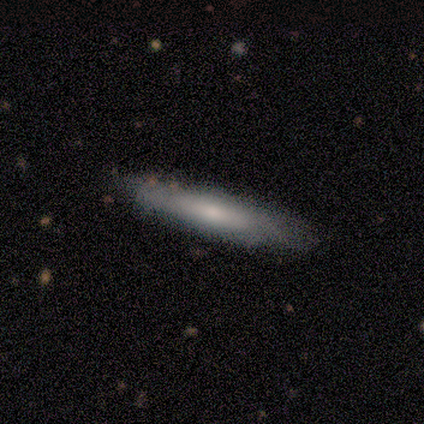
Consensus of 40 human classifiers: Smooth or featured?
  - smooth: 62% *
  - featured or disk: 35%
  - star or artifact: 2%
How rounded?
  - cigar-shaped: 84% *
  - in between: 16%
  - round: 0%
Merging?
  - none: 77% *
  - minor disturbance: 3%
  - major disturbance: 3%
  - merger: 0%